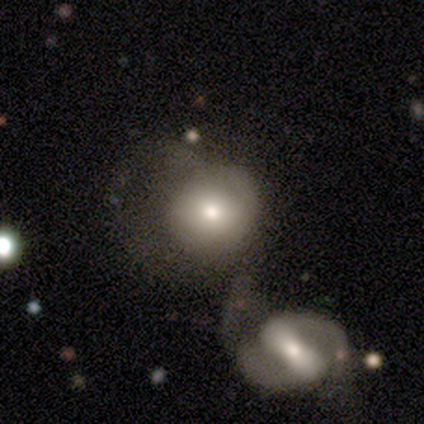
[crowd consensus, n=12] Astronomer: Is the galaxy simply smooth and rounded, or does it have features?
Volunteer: smooth — 50% (runner-up: featured or disk, 33%).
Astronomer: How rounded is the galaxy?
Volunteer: round — 100%.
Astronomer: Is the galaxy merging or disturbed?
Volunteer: merger — 40% (runner-up: none, 30%).